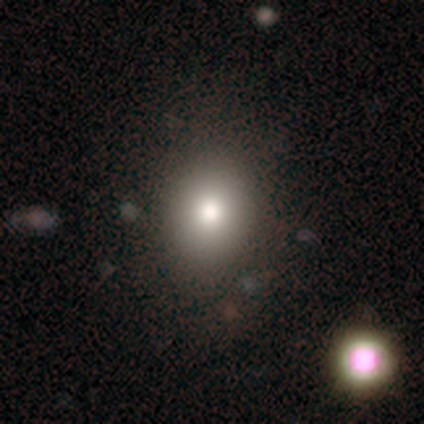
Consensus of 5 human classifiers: Smooth or featured: smooth — 80% (star or artifact — 20%)
How rounded: round — 75% (in between — 25%)
Merging: none — 100%